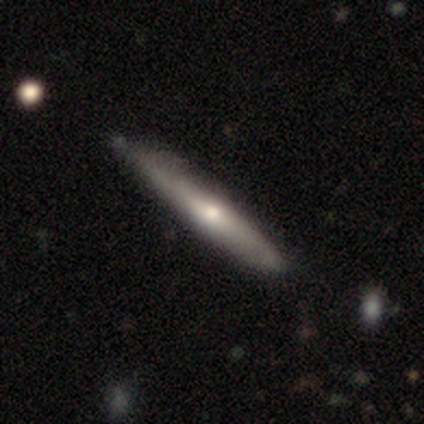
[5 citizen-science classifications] Morphology: type=featured or disk (60%); edge-on=yes (100%); edge-on bulge=rounded (100%); merging=none (50%).